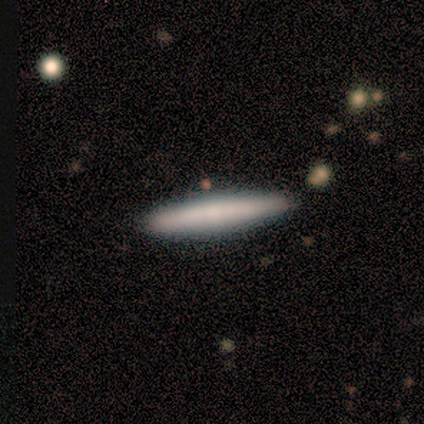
Smooth or featured: smooth — 100%
How rounded: cigar-shaped — 100%
Merging: none — 100%